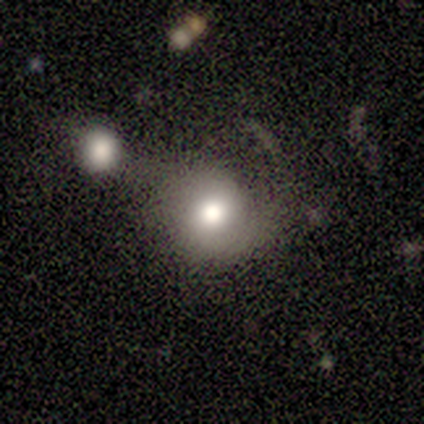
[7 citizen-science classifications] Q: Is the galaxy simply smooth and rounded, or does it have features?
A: smooth — 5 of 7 (71%).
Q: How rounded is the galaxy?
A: round — 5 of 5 (100%).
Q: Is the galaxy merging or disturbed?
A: none — 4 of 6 (67%).